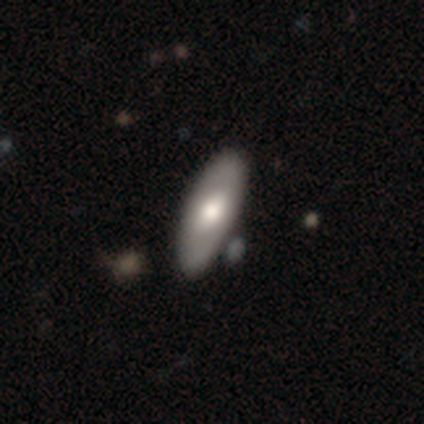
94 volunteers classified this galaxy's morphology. Smooth or featured?
  - smooth: 56% *
  - featured or disk: 41%
  - star or artifact: 2%
How rounded?
  - in between: 81% *
  - cigar-shaped: 15%
  - round: 4%
Merging?
  - none: 78% *
  - minor disturbance: 17%
  - merger: 4%
  - major disturbance: 0%